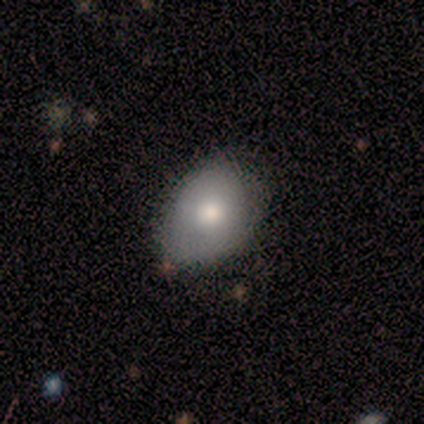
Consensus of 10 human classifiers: This is likely a smooth galaxy (60%). How rounded: clearly in between (83%). Merging: likely none (78%).